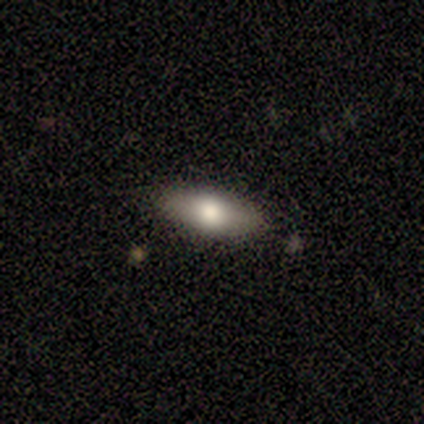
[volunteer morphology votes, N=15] Smooth or featured? smooth (67%)
How rounded? cigar-shaped (50%)
Merging? none (93%)